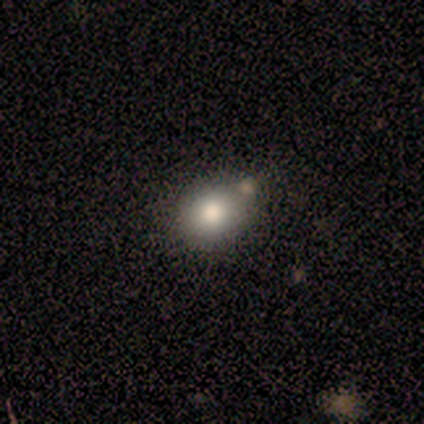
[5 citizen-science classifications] smooth-or-featured: smooth: 60% | featured or disk: 20% | star or artifact: 20%
  how-rounded: round: 67% | in between: 33% | cigar-shaped: 0%
  merging: none: 50% (tied) | minor disturbance: 50% (tied) | major disturbance: 0% | merger: 0%